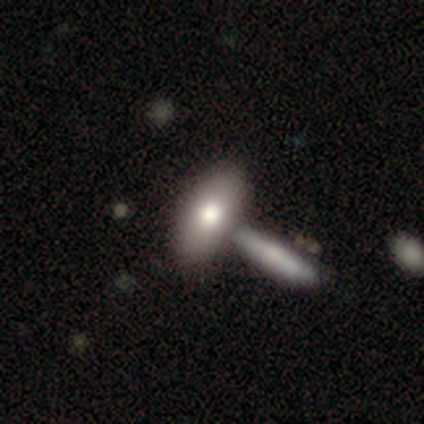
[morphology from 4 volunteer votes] smooth_or_featured: smooth (p=0.75) [alt: star or artifact p=0.25]
how_rounded: in between (p=0.67) [alt: cigar-shaped p=0.33]
merging: none (p=0.33) [tied with: major disturbance p=0.33, merger p=0.33]